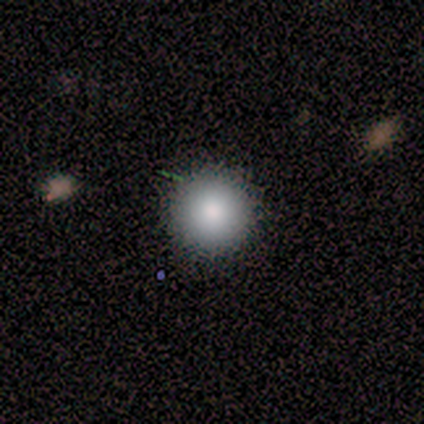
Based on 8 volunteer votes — Overall: smooth (88%). How rounded: round (86%). Merging: none (88%).